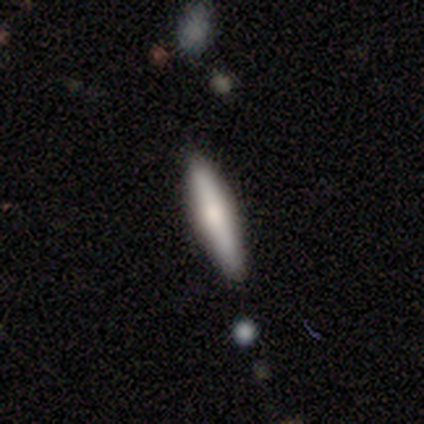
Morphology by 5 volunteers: smooth 80%, featured or disk 20%, star or artifact 0%. Down the decision tree: how rounded — in between (50%, tied with cigar-shaped); merging — none (100%).